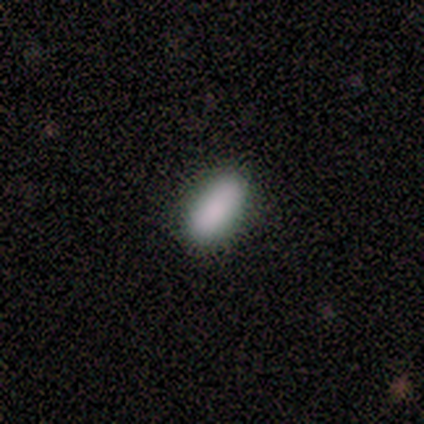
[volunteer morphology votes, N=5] Smooth or featured: smooth — 80% (star or artifact — 20%)
How rounded: in between — 75% (cigar-shaped — 25%)
Merging: none — 100%